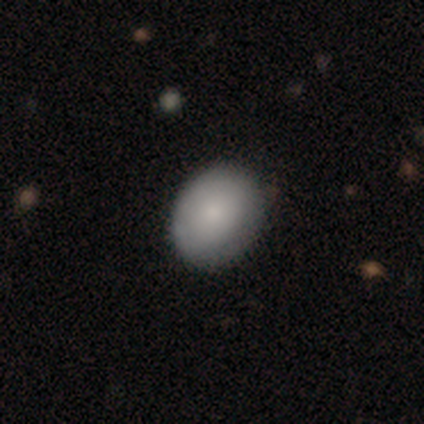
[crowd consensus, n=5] Smooth or featured?
  - smooth: 80% *
  - featured or disk: 20%
  - star or artifact: 0%
How rounded?
  - round: 75% *
  - in between: 25%
  - cigar-shaped: 0%
Merging?
  - none: 60% *
  - minor disturbance: 40%
  - major disturbance: 0%
  - merger: 0%